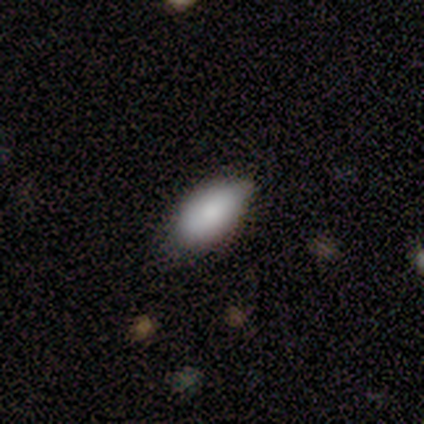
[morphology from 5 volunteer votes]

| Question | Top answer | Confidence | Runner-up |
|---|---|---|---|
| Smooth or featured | smooth | 100% | — |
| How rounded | in between | 100% | — |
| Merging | minor disturbance | 60% | none (40%) |